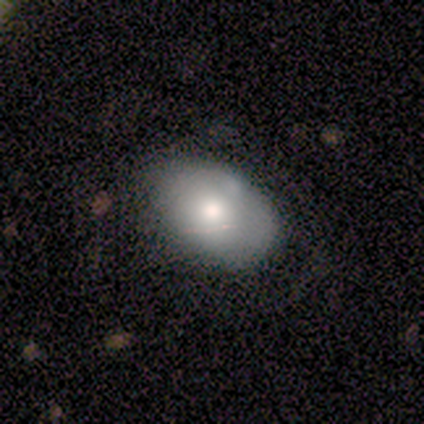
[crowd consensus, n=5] Smooth or featured: smooth — 80% (featured or disk — 20%)
How rounded: in between — 75% (round — 25%)
Merging: none — 60% (minor disturbance — 40%)